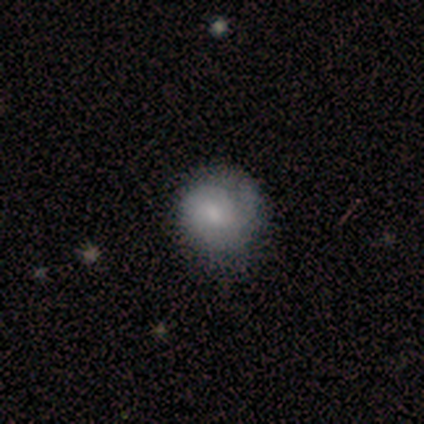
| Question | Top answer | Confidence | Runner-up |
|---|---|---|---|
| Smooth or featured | smooth | 48% | tied: featured or disk (48%) |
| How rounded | round | 89% | in between (11%) |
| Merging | none | 42% | minor disturbance (13%) |